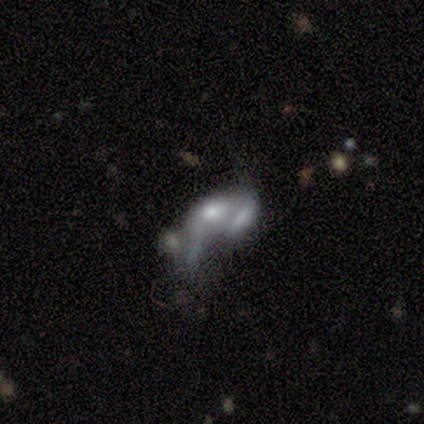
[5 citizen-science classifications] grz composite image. It shows a featured or disk galaxy (40%, tied with star or artifact) with no bar (100%), no spiral arms (100%) and a large central bulge (50%, tied with none). Merging: merger (67%).